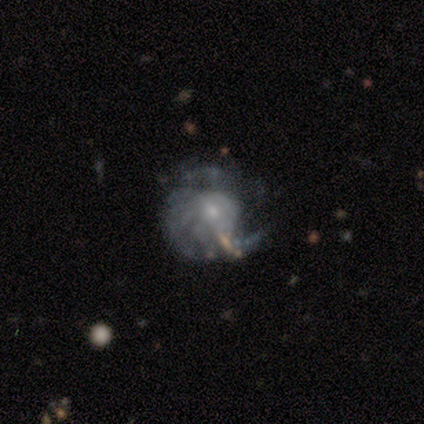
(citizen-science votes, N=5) Smooth or featured: featured or disk — 60% (smooth — 20%)
Edge-on disk: no — 100%
Bar: no — 100%
Spiral arms: yes — 67% (no — 33%)
Spiral winding: tight — 100%
Spiral arm count: 2 — 50% (tied with can't tell — 50%)
Bulge size: small — 100%
Merging: major disturbance — 50% (none — 25%)